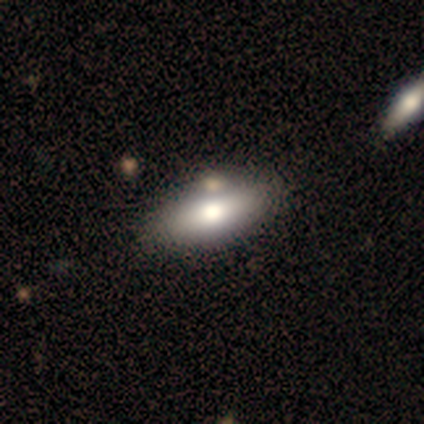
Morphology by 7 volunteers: type=smooth (100%); roundness=in between (86%); merging=none (86%).